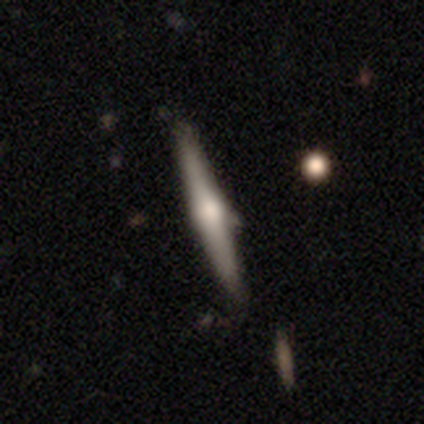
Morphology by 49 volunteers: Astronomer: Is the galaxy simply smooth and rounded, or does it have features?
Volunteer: featured or disk — 65%.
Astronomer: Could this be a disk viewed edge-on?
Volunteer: yes — 97%.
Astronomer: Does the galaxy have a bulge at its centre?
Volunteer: rounded — 97%.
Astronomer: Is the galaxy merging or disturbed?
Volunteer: none — 87%.